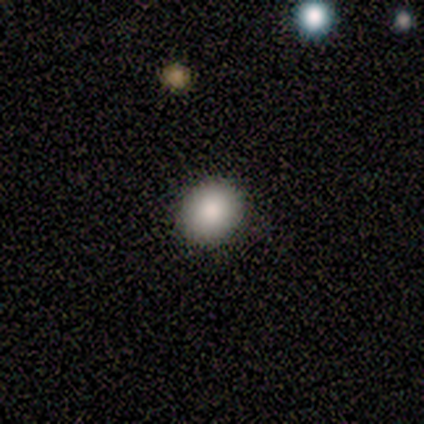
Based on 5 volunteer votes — A smooth galaxy with no disk features (80%) that is round (75%). Merging: none (100%).